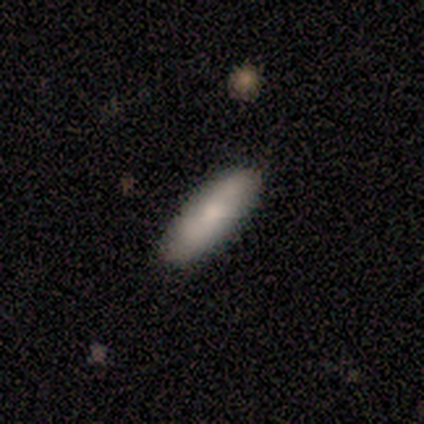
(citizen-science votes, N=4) Smooth or featured: smooth — 100%
How rounded: cigar-shaped — 75% (in between — 25%)
Merging: none — 100%